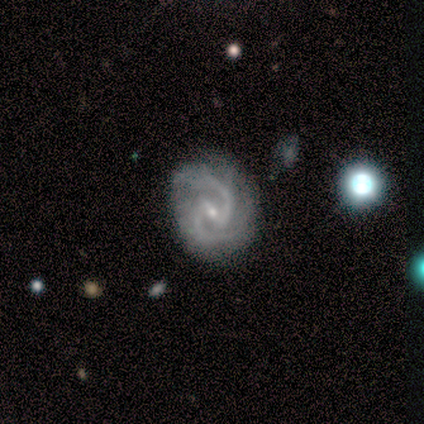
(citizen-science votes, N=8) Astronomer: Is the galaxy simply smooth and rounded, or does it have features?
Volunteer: featured or disk — 88%.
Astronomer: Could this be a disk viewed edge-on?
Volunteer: no — 100%.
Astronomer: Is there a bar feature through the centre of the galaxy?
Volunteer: strong — 43% (runner-up: weak, 29%).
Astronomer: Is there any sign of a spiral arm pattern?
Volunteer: yes — 100%.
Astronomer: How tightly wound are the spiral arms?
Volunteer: tight — 43% (runner-up: medium, 29%).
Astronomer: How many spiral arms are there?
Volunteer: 2 — 100%.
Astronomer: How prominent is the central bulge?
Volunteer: small — 71%.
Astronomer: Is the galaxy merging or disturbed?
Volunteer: none — 88%.